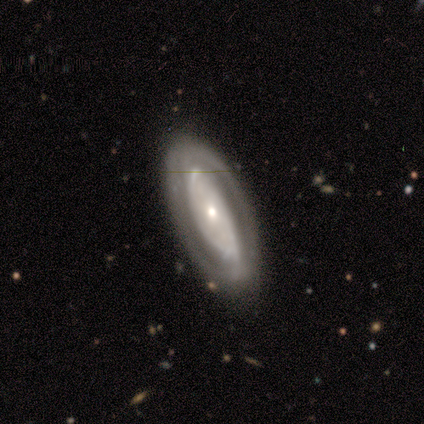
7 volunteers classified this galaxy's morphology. Smooth or featured? 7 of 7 (100%) said featured or disk. Edge-on disk? 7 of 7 (100%) said no. Bar? 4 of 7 (57%) said no. Spiral arms? 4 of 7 (57%) said yes. Spiral winding? 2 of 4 (50%) said tight. Spiral arm count? 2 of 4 (50%, tied with can't tell) said 2. Bulge size? 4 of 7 (57%) said small. Merging? 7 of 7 (100%) said none.